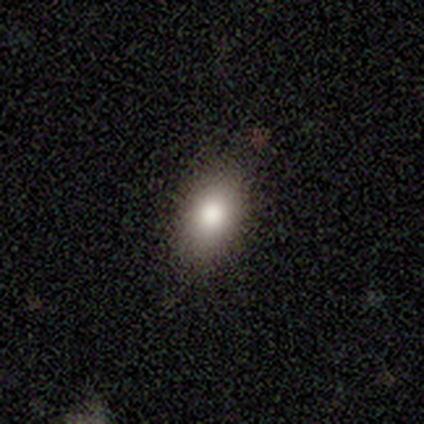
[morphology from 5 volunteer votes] This is clearly a smooth galaxy (100%). How rounded: clearly in between (80%). Merging: clearly none (100%).